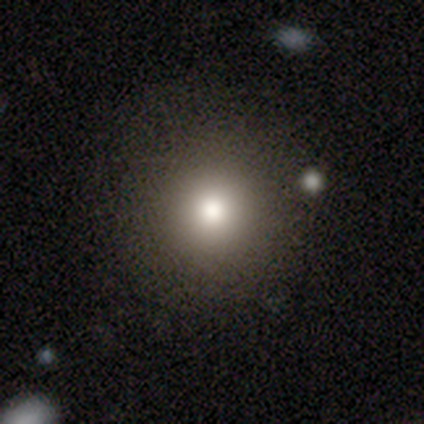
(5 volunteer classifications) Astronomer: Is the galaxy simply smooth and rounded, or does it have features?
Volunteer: smooth — 60% (runner-up: star or artifact, 40%).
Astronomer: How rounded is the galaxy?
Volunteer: round — 100%.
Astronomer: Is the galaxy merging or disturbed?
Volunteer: none — 100%.